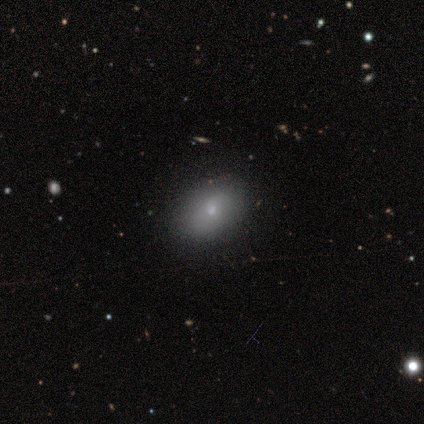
Morphology: type=smooth (50%, tied with featured or disk); roundness=in between (50%, tied with cigar-shaped); merging=none (50%).